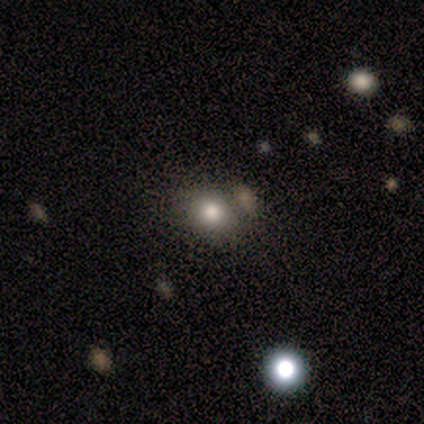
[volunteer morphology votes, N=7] Smooth or featured: smooth — 71% (featured or disk — 14%)
How rounded: round — 60% (in between — 40%)
Merging: none — 50% (merger — 33%)